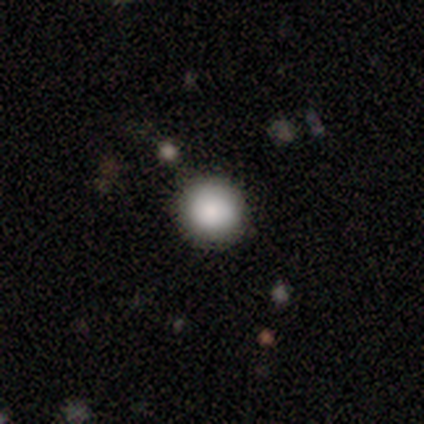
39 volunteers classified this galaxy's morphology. This is clearly a smooth galaxy (82%). How rounded: clearly round (91%). Merging: clearly none (91%).